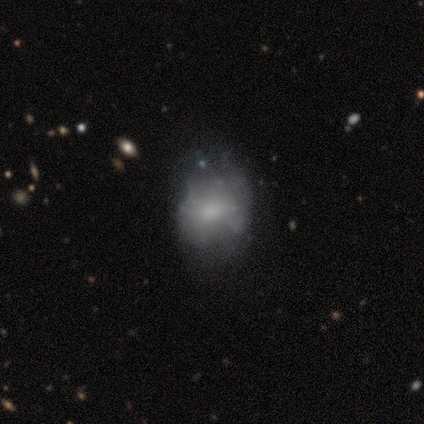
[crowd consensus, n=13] Overall: smooth (54%; featured or disk 38%). How rounded: in between (71%). Merging: none (42%; minor disturbance 33%).